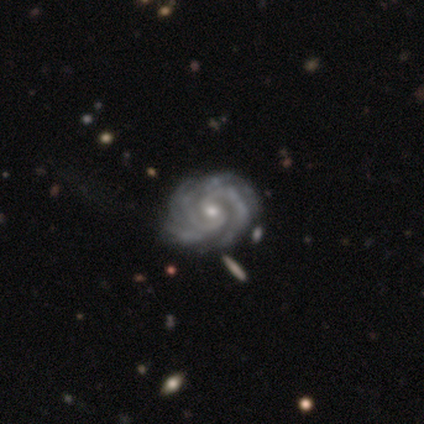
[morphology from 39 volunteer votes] smooth_or_featured: featured or disk (p=0.95) [alt: smooth p=0.03]
disk_edge_on: no (p=1.00)
bar: no (p=0.51) [alt: weak p=0.41]
has_spiral_arms: yes (p=1.00)
spiral_winding: tight (p=0.73) [alt: medium p=0.27]
spiral_arm_count: 2 (p=0.30) [alt: 3 p=0.27]
bulge_size: small (p=0.49) [alt: moderate p=0.46]
merging: none (p=0.61) [alt: minor disturbance p=0.11]